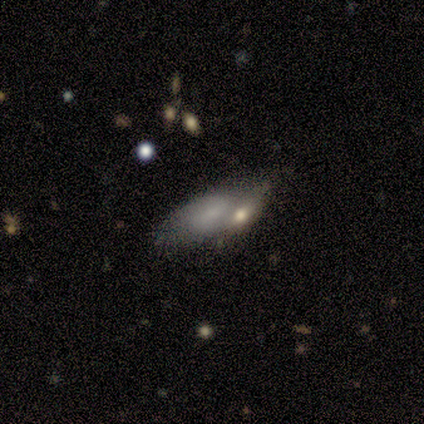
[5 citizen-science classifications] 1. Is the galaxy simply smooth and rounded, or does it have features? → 80% smooth, 20% featured or disk, 0% star or artifact.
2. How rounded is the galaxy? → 100% in between, 0% round, 0% cigar-shaped.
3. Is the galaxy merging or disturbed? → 60% none, 20% minor disturbance, 20% merger, 0% major disturbance.